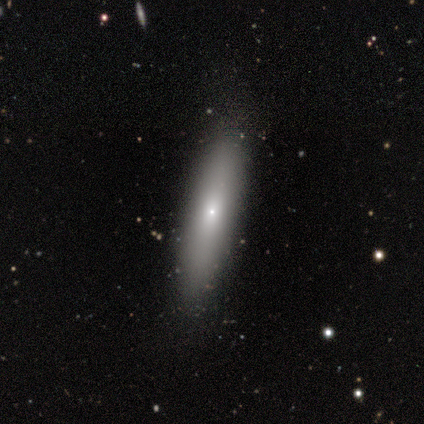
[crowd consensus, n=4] smooth_or_featured: smooth (p=0.75) [alt: featured or disk p=0.25]
how_rounded: cigar-shaped (p=0.67) [alt: in between p=0.33]
merging: none (p=1.00)